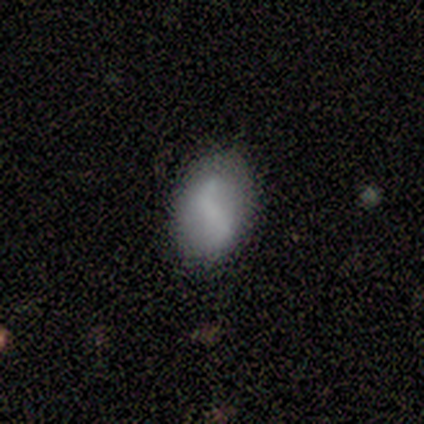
A smooth galaxy with no disk features (60%) that is in between round and cigar-shaped (67%).

Vote fractions:
- Smooth or featured? smooth: 60% / featured or disk: 40% / star or artifact: 0%
- How rounded? in between: 67% / round: 33% / cigar-shaped: 0%
- Merging? none: 100% / minor disturbance: 0% / major disturbance: 0% / merger: 0%